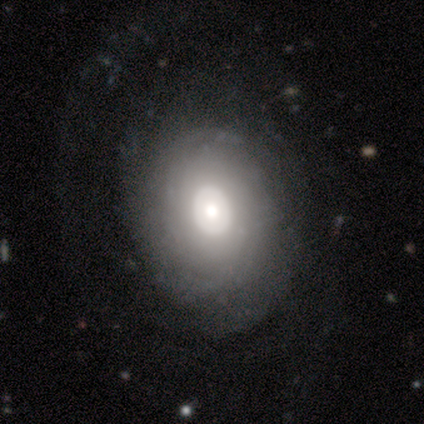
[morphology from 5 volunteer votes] This appears to be a featured or disk galaxy (60%) with no bar (100%), no spiral arms (100%) and a moderate central bulge (100%). Merging: none (80%).